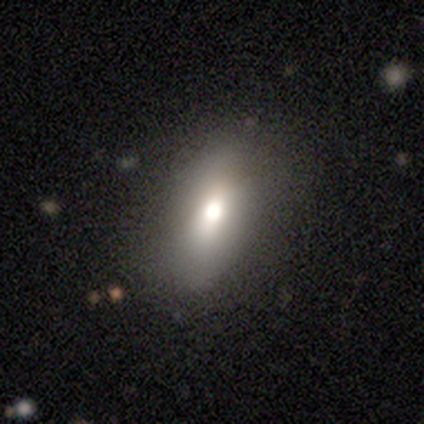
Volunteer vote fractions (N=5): smooth_or_featured: smooth (p=0.60) [alt: featured or disk p=0.20]
how_rounded: in between (p=1.00)
merging: none (p=1.00)